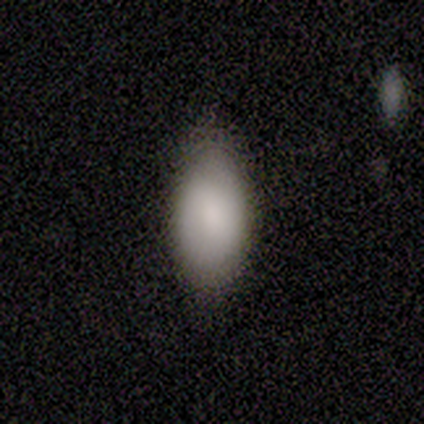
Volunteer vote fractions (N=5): smooth 100%, featured or disk 0%, star or artifact 0%. Down the decision tree: how rounded — in between (80%); merging — none (100%).